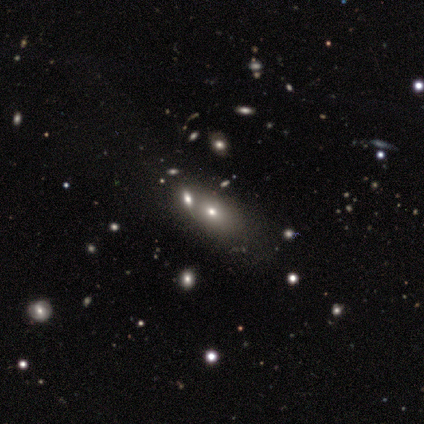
Smooth or featured?
  - smooth: 50% * (tied)
  - star or artifact: 50% * (tied)
  - featured or disk: 0%
How rounded?
  - in between: 100% *
  - round: 0%
  - cigar-shaped: 0%
Merging?
  - merger: 100% *
  - none: 0%
  - minor disturbance: 0%
  - major disturbance: 0%